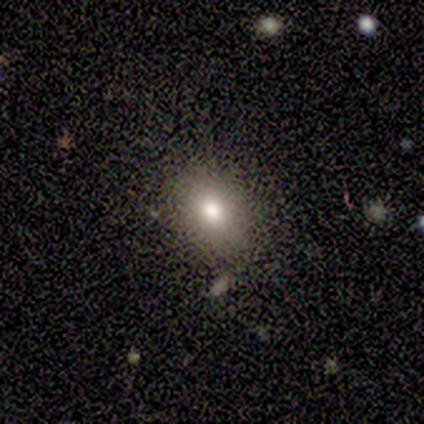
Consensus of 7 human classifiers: smooth 86%, featured or disk 14%, star or artifact 0%. Down the decision tree: how rounded — in between (67%); merging — none (86%).